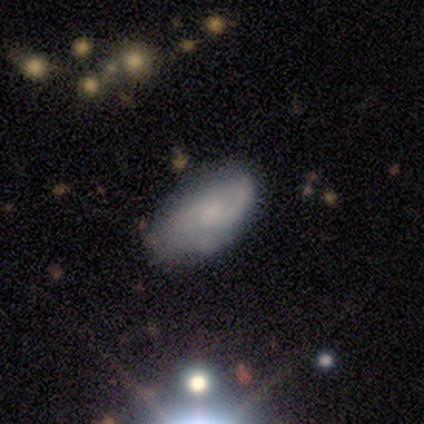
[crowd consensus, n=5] Smooth or featured?
  - featured or disk: 80% *
  - smooth: 20%
  - star or artifact: 0%
Edge-on disk?
  - no: 100% *
  - yes: 0%
Bar?
  - weak: 50% * (tied)
  - no: 50% * (tied)
  - strong: 0%
Spiral arms?
  - yes: 75% *
  - no: 25%
Spiral winding?
  - medium: 100% *
  - tight: 0%
  - loose: 0%
Spiral arm count?
  - 2: 100% *
  - 1: 0%
  - 3: 0%
  - 4: 0%
  - more than 4: 0%
  - can't tell: 0%
Bulge size?
  - small: 50% *
  - moderate: 25%
  - none: 25%
  - dominant: 0%
  - large: 0%
Merging?
  - none: 100% *
  - minor disturbance: 0%
  - major disturbance: 0%
  - merger: 0%